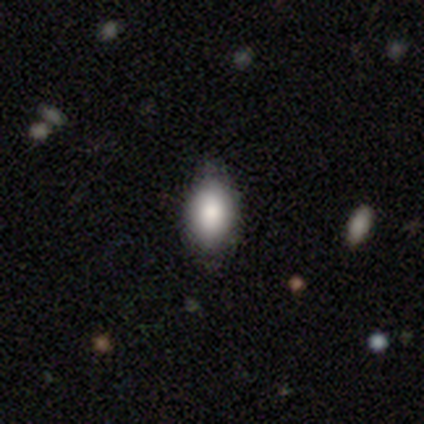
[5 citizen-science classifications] Overall: smooth (60%; featured or disk 20%). How rounded: in between (67%; round 33%). Merging: none (75%).